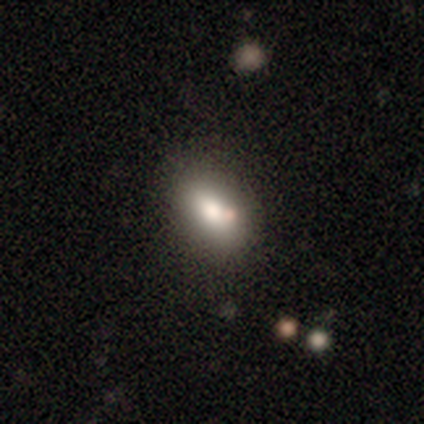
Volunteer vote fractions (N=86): Overall: smooth (71%). How rounded: in between (85%). Merging: none (68%).